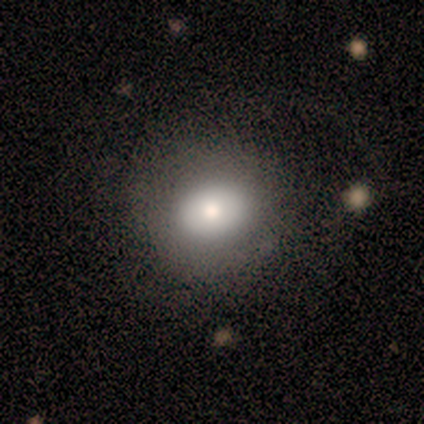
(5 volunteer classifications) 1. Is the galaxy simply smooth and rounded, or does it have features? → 80% smooth, 20% featured or disk, 0% star or artifact.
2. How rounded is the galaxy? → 75% round, 25% in between, 0% cigar-shaped.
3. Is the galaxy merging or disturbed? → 40% none (tied), 40% minor disturbance (tied), 20% major disturbance, 0% merger.